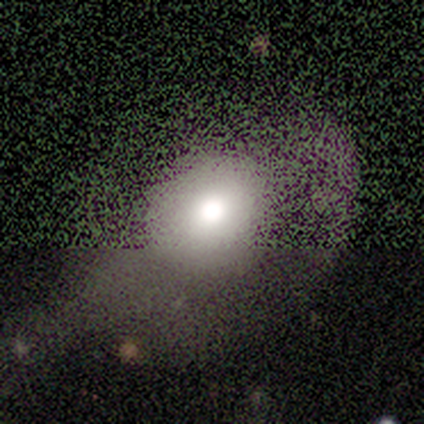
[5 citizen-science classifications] Q: Smooth or featured?
A: smooth (100%)
Q: How rounded?
A: round (80%); runner-up: in between (20%)
Q: Merging?
A: none (40%); tied with: major disturbance (40%)